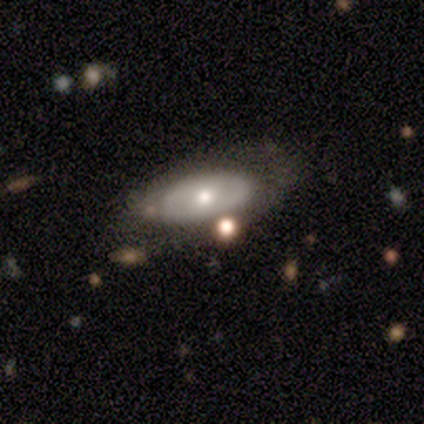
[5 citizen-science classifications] Smooth or featured: featured or disk — 60% (smooth — 40%)
Edge-on disk: no — 100%
Bar: no — 100%
Spiral arms: no — 100%
Bulge size: moderate — 67% (large — 33%)
Merging: none — 80% (major disturbance — 20%)